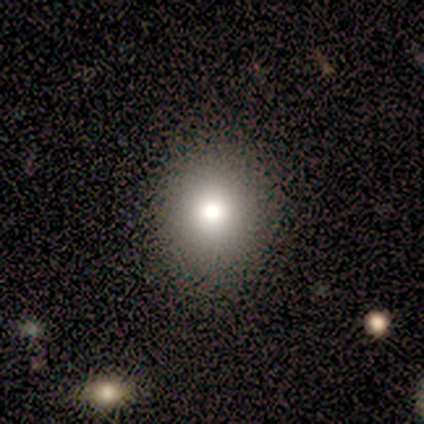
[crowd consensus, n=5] Overall: smooth (100%). How rounded: round (80%). Merging: none (100%).